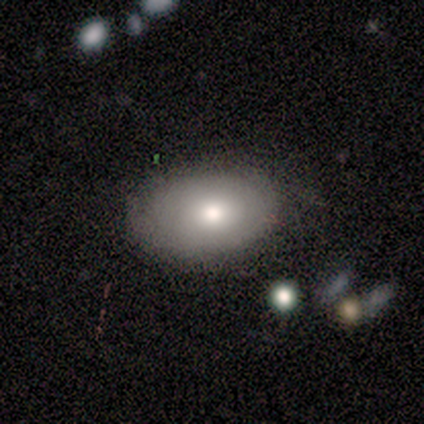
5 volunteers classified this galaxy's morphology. This is clearly a smooth galaxy (80%). How rounded: clearly in between (100%). Merging: clearly none (80%).